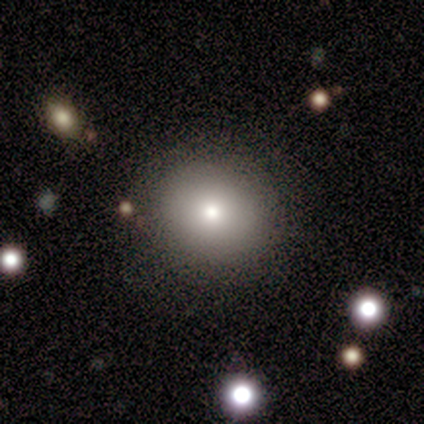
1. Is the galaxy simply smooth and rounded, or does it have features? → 60% smooth, 40% featured or disk, 0% star or artifact.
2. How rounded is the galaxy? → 67% round, 33% in between, 0% cigar-shaped.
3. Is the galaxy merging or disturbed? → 100% none, 0% minor disturbance, 0% major disturbance, 0% merger.